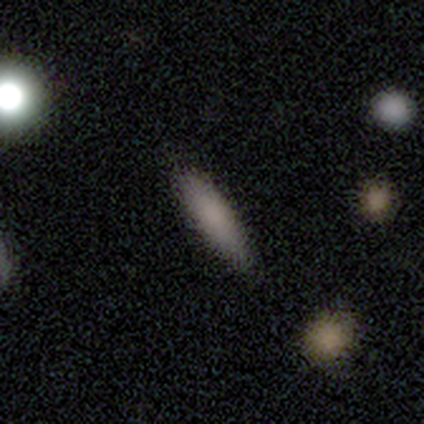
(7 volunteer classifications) Volunteers were most divided on "how rounded": cigar-shaped: 57%, in between: 43%, round: 0%. More confident: smooth or featured — smooth (100%); merging — none (100%).